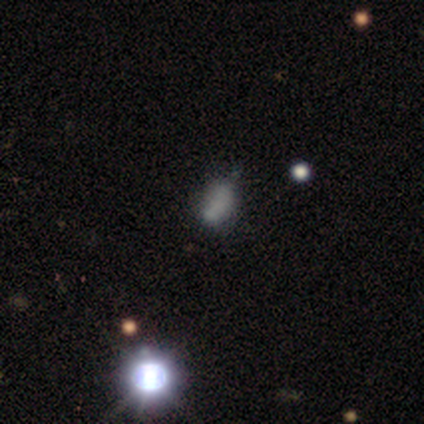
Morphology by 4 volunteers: Smooth or featured?
  - smooth: 50% *
  - featured or disk: 25%
  - star or artifact: 25%
How rounded?
  - in between: 100% *
  - round: 0%
  - cigar-shaped: 0%
Merging?
  - none: 67% *
  - minor disturbance: 33%
  - major disturbance: 0%
  - merger: 0%